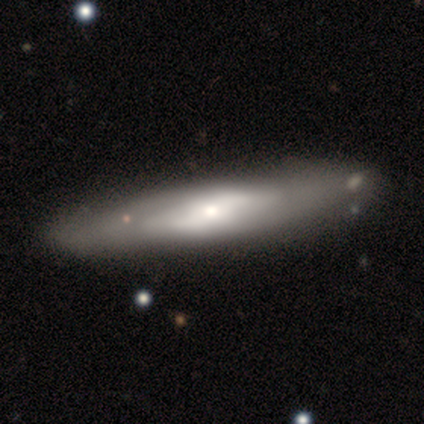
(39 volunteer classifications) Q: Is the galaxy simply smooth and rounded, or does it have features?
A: featured or disk — 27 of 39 (69%).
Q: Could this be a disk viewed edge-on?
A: no — 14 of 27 (52%).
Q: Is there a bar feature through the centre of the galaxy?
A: no — 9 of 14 (64%).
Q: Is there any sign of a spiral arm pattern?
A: yes — 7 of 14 (50%, tied with no).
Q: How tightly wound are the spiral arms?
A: tight — 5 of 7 (71%).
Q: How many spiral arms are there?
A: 2 — 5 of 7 (71%).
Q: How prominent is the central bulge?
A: moderate — 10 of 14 (71%).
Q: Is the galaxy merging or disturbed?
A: none — 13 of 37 (35%).